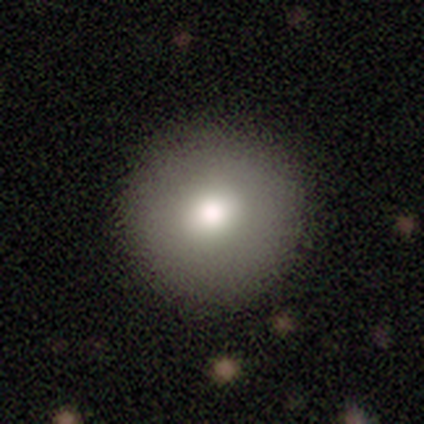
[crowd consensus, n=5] Morphology: type=smooth (60%); roundness=round (100%); merging=none (100%).